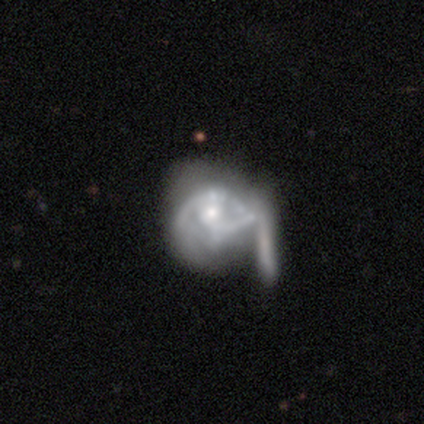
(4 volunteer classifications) This appears to be a featured or disk galaxy (75%) with no bar (67%), no spiral arms (67%) and a small central bulge (67%). Merging: merger (67%).